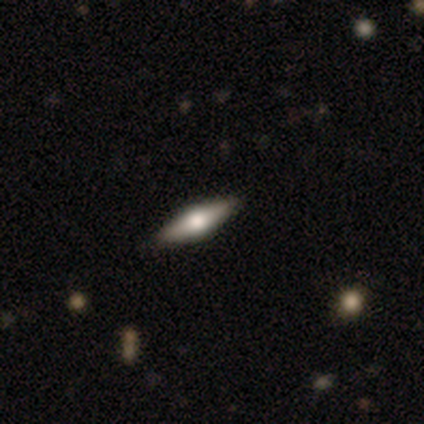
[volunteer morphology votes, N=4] Smooth or featured? 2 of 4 (50%, tied with featured or disk) said smooth. How rounded? 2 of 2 (100%) said in between. Merging? 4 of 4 (100%) said none.